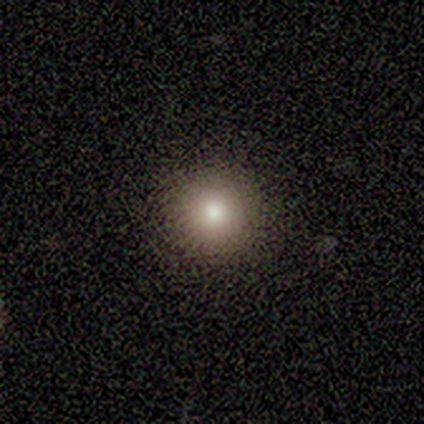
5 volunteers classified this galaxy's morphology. smooth-or-featured: smooth: 100% | featured or disk: 0% | star or artifact: 0%
  how-rounded: round: 100% | in between: 0% | cigar-shaped: 0%
  merging: none: 100% | minor disturbance: 0% | major disturbance: 0% | merger: 0%